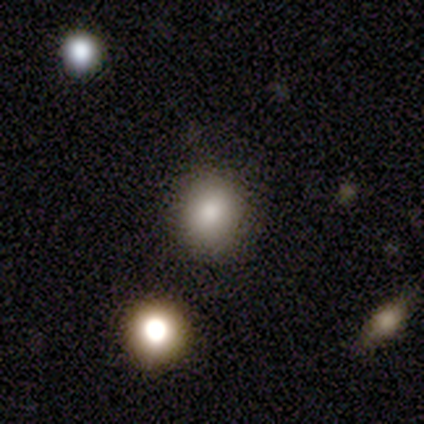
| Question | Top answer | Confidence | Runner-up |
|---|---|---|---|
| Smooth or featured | smooth | 79% | star or artifact (21%) |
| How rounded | round | 82% | in between (18%) |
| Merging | none | 82% | minor disturbance (9%) |